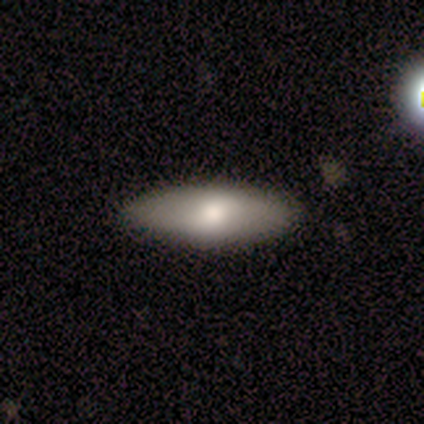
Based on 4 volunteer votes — This appears to be a smooth galaxy with no disk features (100%) that is in between round and cigar-shaped (75%). Merging: none (50%, tied with minor disturbance).